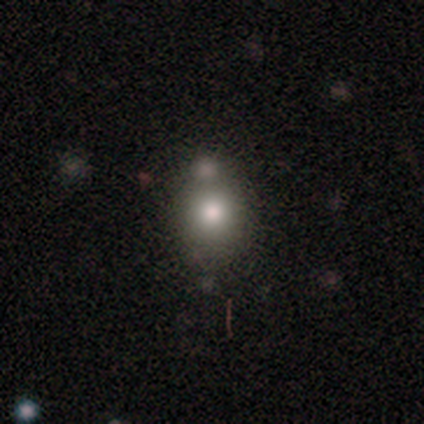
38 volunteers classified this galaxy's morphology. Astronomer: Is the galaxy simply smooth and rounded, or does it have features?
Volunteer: smooth — 68%.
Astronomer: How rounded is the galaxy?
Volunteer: round — 77%.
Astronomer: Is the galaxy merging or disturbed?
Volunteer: none — 29% (runner-up: merger, 26%).